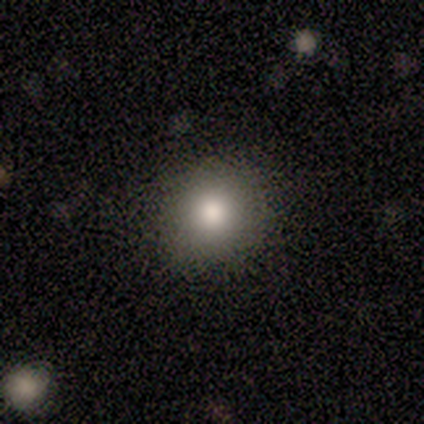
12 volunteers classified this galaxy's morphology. Smooth or featured? smooth (92%)
How rounded? round (82%)
Merging? none (82%)